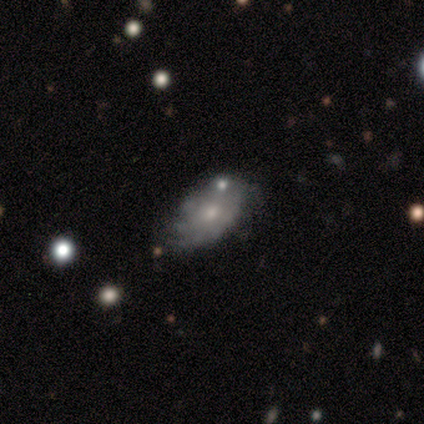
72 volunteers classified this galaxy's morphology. This is possibly a featured or disk galaxy (57%). It is clearly not viewed edge-on (100%). Bar: likely no (78%). Spiral arm pattern: likely yes (63%). Spiral arm count: likely can't tell (69%). Spiral winding: possibly tight (58%). Central bulge: possibly small (49%). Merging: possibly none (54%).